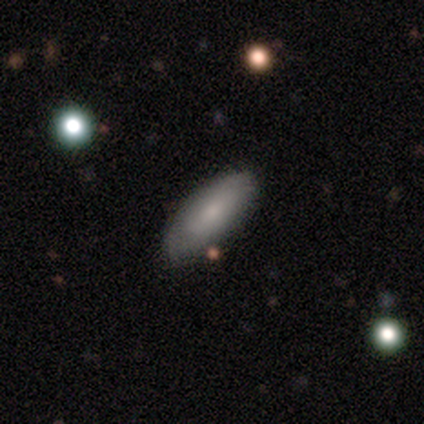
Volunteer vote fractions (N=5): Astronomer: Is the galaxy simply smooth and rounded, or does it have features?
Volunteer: smooth — 60% (runner-up: featured or disk, 40%).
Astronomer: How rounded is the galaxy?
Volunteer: in between — 100%.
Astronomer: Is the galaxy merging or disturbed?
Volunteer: none — 100%.